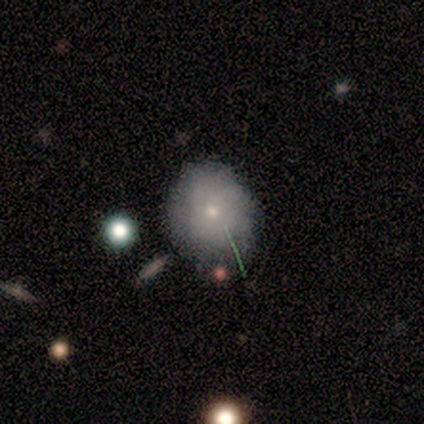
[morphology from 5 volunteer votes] Smooth or featured: smooth — 60% (star or artifact — 40%)
How rounded: round — 67% (in between — 33%)
Merging: none — 67% (minor disturbance — 33%)